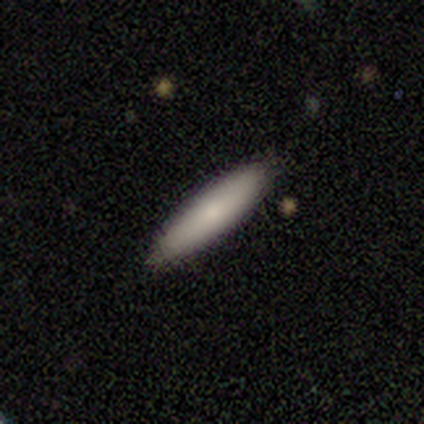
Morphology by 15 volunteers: A smooth galaxy with no disk features (87%) that is cigar-shaped (85%). Merging: none (67%).